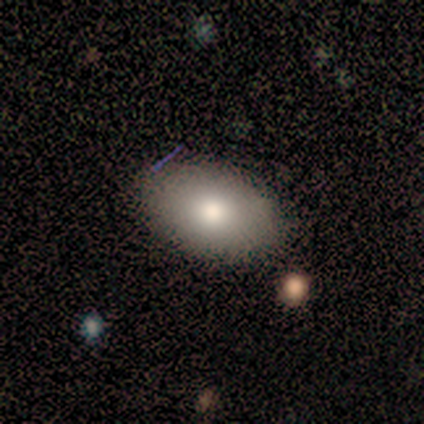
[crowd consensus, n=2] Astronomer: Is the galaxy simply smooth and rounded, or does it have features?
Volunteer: smooth — 100%.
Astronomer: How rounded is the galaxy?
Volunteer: in between — 100%.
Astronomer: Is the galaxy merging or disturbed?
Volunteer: none — 50%, tied with minor disturbance at 50%.